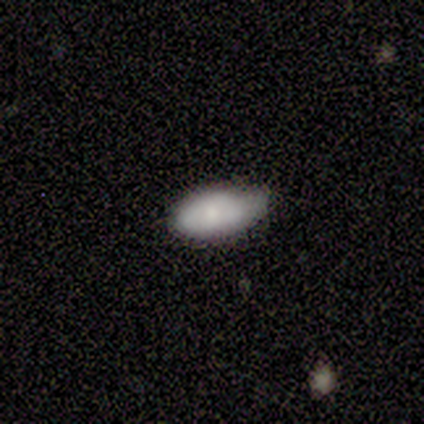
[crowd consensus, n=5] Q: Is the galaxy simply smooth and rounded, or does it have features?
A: smooth — 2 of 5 (40%, tied with featured or disk).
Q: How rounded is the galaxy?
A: in between — 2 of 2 (100%).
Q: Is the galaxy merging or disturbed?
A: minor disturbance — 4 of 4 (100%).